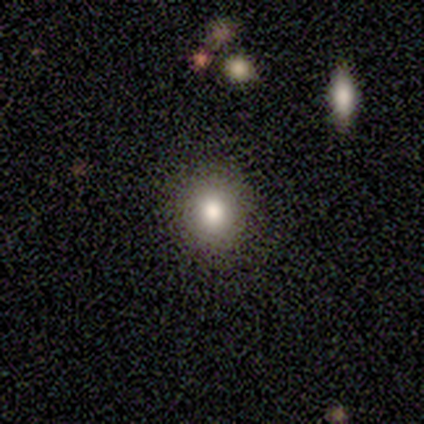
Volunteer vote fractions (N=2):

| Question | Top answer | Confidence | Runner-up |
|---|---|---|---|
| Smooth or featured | smooth | 100% | — |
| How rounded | round | 100% | — |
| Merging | none | 100% | — |